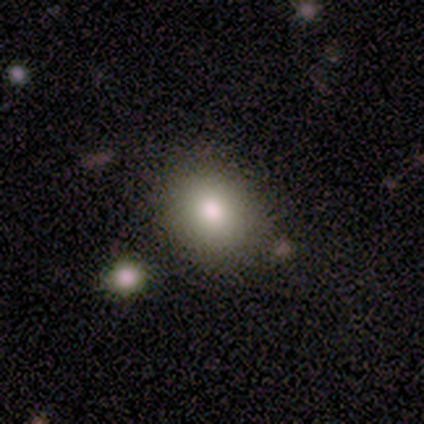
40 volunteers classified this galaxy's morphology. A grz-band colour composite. It shows a smooth galaxy with no disk features (80%) that is round (59%). Merging: none (83%).